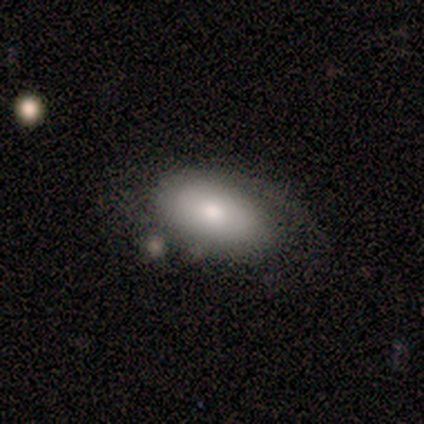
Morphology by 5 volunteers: Smooth or featured?
  - featured or disk: 60% *
  - smooth: 40%
  - star or artifact: 0%
Edge-on disk?
  - no: 100% *
  - yes: 0%
Bar?
  - no: 100% *
  - strong: 0%
  - weak: 0%
Spiral arms?
  - yes: 100% *
  - no: 0%
Spiral winding?
  - medium: 100% *
  - tight: 0%
  - loose: 0%
Spiral arm count?
  - 1: 67% *
  - 2: 33%
  - 3: 0%
  - 4: 0%
  - more than 4: 0%
  - can't tell: 0%
Bulge size?
  - moderate: 67% *
  - large: 33%
  - dominant: 0%
  - small: 0%
  - none: 0%
Merging?
  - none: 60% *
  - minor disturbance: 20%
  - merger: 20%
  - major disturbance: 0%